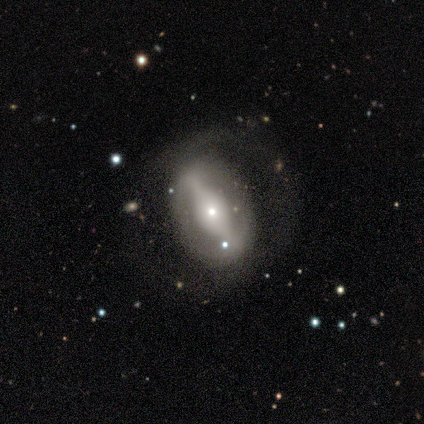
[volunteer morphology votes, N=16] smooth_or_featured: featured or disk (p=0.75) [alt: smooth p=0.19]
disk_edge_on: no (p=1.00)
bar: strong (p=0.67) [alt: no p=0.25]
has_spiral_arms: no (p=0.58) [alt: yes p=0.42]
bulge_size: small (p=0.67) [alt: large p=0.17]
merging: none (p=0.67) [alt: major disturbance p=0.20]